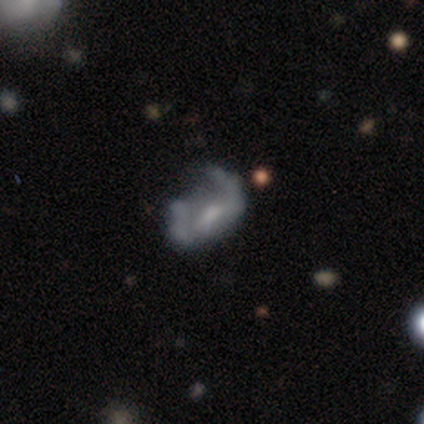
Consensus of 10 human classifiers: Smooth or featured? featured or disk (80%)
Edge-on disk? no (100%)
Bar? no (50%)
Spiral arms? no (100%)
Bulge size? small (50%)
Merging? none (50%)